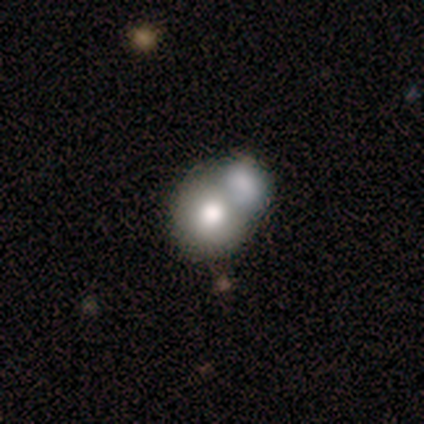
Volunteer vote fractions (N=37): smooth-or-featured: smooth: 59% | featured or disk: 27% | star or artifact: 14%
  how-rounded: round: 68% | in between: 27% | cigar-shaped: 5%
  merging: merger: 62% | none: 16% | minor disturbance: 16% | major disturbance: 6%